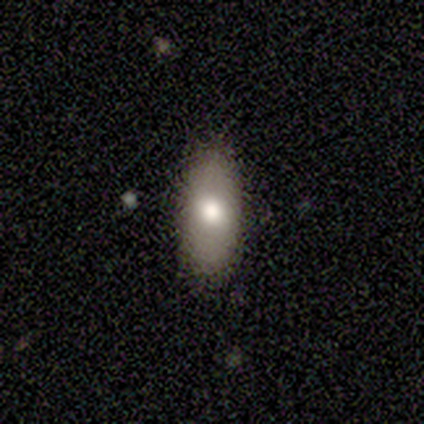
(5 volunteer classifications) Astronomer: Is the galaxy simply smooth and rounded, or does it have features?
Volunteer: smooth — 80%.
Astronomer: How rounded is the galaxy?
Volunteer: in between — 100%.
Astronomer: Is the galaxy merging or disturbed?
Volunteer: none — 75%.